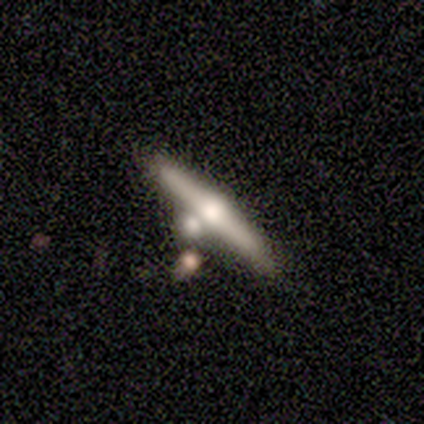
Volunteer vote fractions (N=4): Volunteers were most divided on "edge-on disk": yes: 75%, no: 25%. More confident: smooth or featured — featured or disk (100%); edge-on bulge — rounded (100%); merging — none (75%).